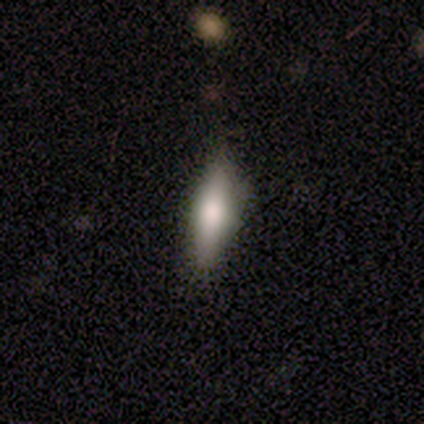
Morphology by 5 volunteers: Smooth or featured? 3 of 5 (60%) said featured or disk. Edge-on disk? 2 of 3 (67%) said yes. Edge-on bulge? 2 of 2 (100%) said rounded. Merging? 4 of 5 (80%) said none.